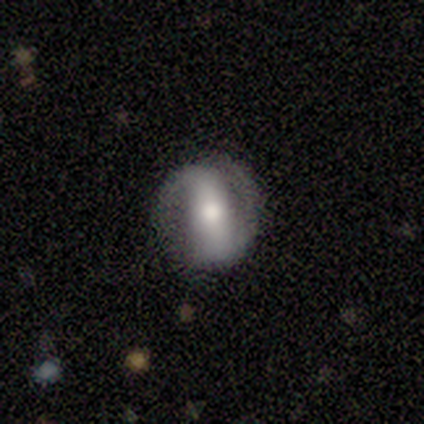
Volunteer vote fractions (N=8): Smooth or featured? 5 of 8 (62%) said featured or disk. Edge-on disk? 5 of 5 (100%) said no. Bar? 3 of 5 (60%) said strong. Spiral arms? 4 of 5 (80%) said yes. Spiral winding? 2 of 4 (50%, tied with medium) said tight. Spiral arm count? 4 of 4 (100%) said 2. Bulge size? 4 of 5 (80%) said moderate. Merging? 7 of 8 (88%) said none.